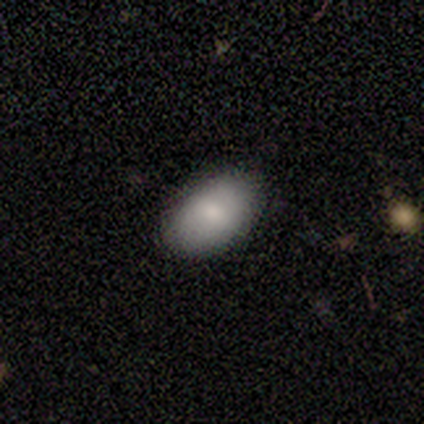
A smooth galaxy with no disk features (100%) that is in between round and cigar-shaped (100%).

Vote fractions:
- Smooth or featured? smooth: 100% / featured or disk: 0% / star or artifact: 0%
- How rounded? in between: 100% / round: 0% / cigar-shaped: 0%
- Merging? none: 80% / minor disturbance: 20% / major disturbance: 0% / merger: 0%